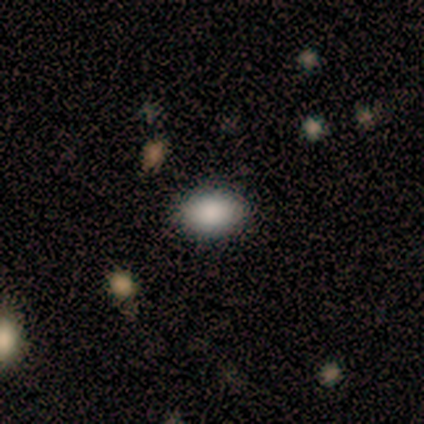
Overall: smooth (100%). How rounded: in between (80%). Merging: none (80%).